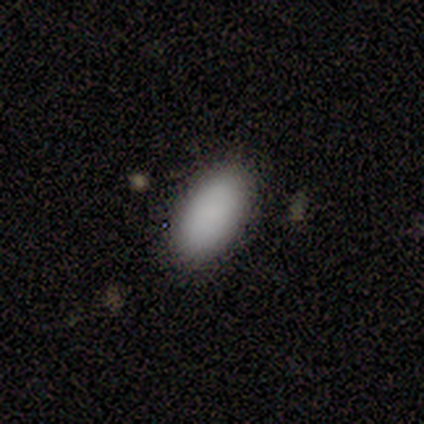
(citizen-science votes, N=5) A smooth galaxy with no disk features (100%) that is in between round and cigar-shaped (80%). Merging: none (80%).